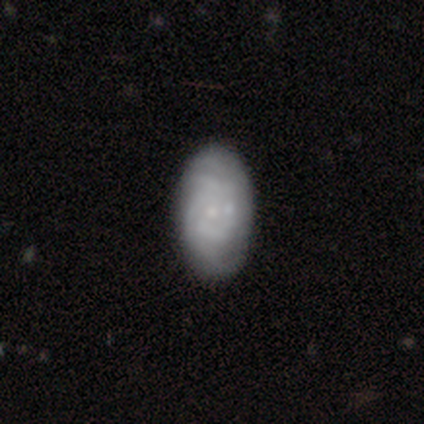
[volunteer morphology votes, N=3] This appears to be a featured or disk galaxy (67%) with no bar (100%), no spiral arms (100%) and a small central bulge (100%). Merging: minor disturbance (50%, tied with merger).